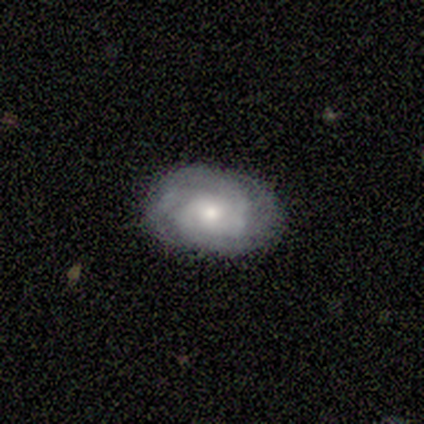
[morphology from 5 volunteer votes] smooth_or_featured: featured or disk (p=1.00)
disk_edge_on: no (p=0.80) [alt: yes p=0.20]
bar: no (p=0.75) [alt: weak p=0.25]
has_spiral_arms: yes (p=1.00)
spiral_winding: tight (p=0.75) [alt: medium p=0.25]
spiral_arm_count: 2 (p=0.50) [alt: 4 p=0.25]
bulge_size: moderate (p=0.50) [tied with: small p=0.50]
merging: none (p=1.00)